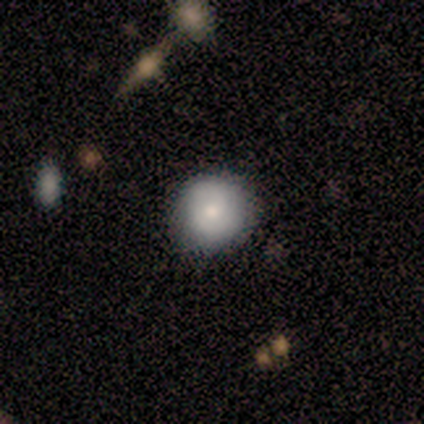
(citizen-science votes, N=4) Overall: smooth (75%). How rounded: round (100%). Merging: none (50%, tied with minor disturbance).